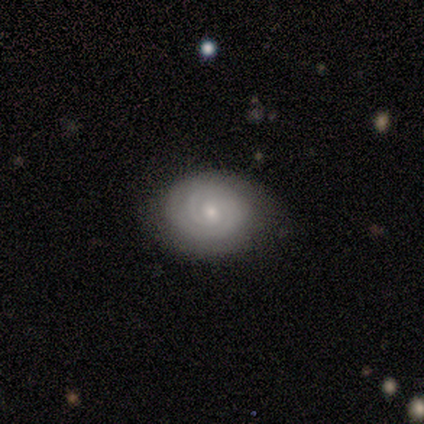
Q: Smooth or featured?
A: featured or disk (80%); runner-up: star or artifact (20%)
Q: Edge-on disk?
A: no (100%)
Q: Bar?
A: weak (50%); tied with: no (50%)
Q: Spiral arms?
A: yes (100%)
Q: Spiral winding?
A: tight (100%)
Q: Spiral arm count?
A: 2 (75%); runner-up: 1 (25%)
Q: Bulge size?
A: moderate (50%); tied with: small (50%)
Q: Merging?
A: none (100%)